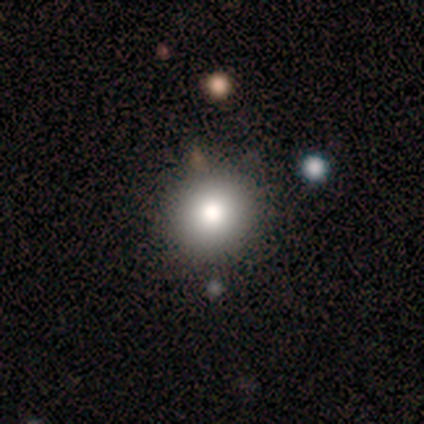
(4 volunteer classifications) This appears to be a smooth galaxy with no disk features (75%) that is round (67%). Merging: none (67%).